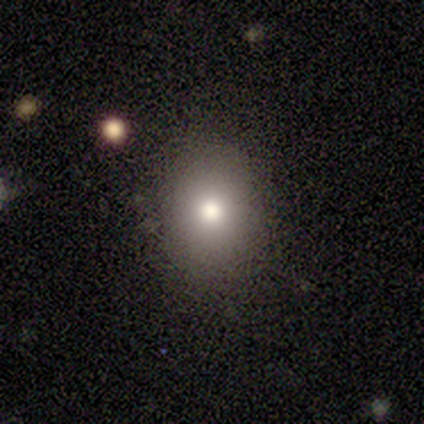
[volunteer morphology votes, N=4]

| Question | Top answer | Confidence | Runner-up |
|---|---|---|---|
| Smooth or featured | smooth | 75% | featured or disk (25%) |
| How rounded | round | 67% | in between (33%) |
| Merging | none | 50% | minor disturbance (25%) |